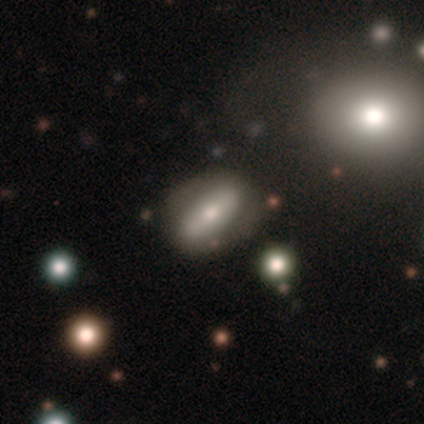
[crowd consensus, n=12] Smooth or featured? featured or disk (67%)
Edge-on disk? no (88%)
Bar? strong (43%, tied with no)
Spiral arms? no (57%)
Bulge size? moderate (71%)
Merging? none (75%)